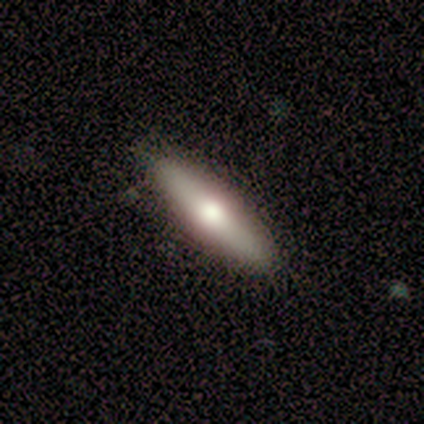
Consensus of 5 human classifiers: Volunteers were most divided on "smooth or featured" (2-way tie): smooth: 40%, featured or disk: 40%, star or artifact: 20%; "how rounded" (2-way tie): in between: 50%, cigar-shaped: 50%, round: 0%. More confident: merging — none (75%).